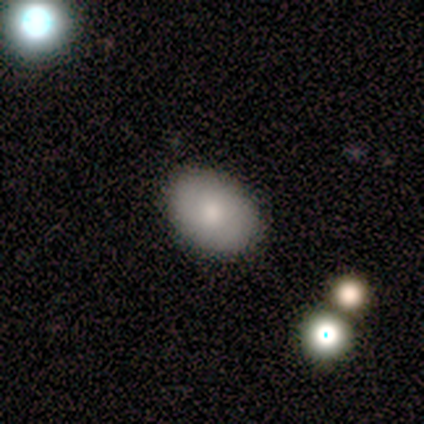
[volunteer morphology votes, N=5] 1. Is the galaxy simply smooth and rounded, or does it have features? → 100% smooth, 0% featured or disk, 0% star or artifact.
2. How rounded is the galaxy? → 80% in between, 20% round, 0% cigar-shaped.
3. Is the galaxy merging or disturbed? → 100% none, 0% minor disturbance, 0% major disturbance, 0% merger.